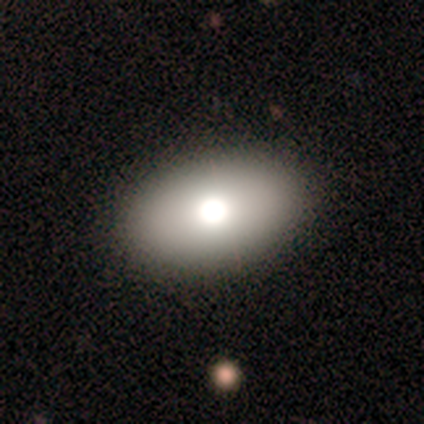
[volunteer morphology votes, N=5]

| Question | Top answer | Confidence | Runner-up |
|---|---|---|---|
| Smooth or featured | smooth | 40% | tied: featured or disk (40%) |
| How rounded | in between | 100% | — |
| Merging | none | 100% | — |